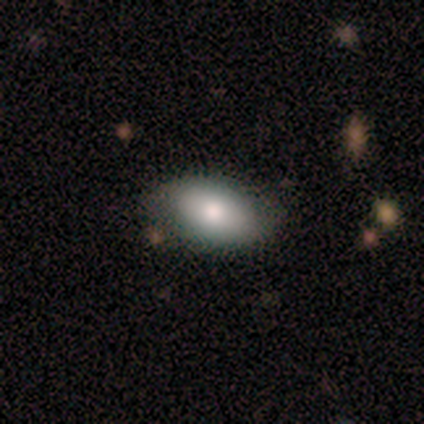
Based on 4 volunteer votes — Smooth or featured? smooth (75%)
How rounded? in between (100%)
Merging? none (50%, tied with minor disturbance)